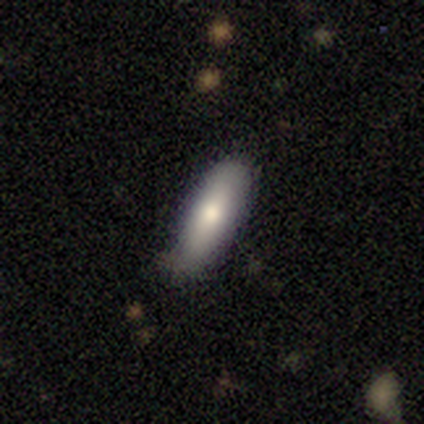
A smooth galaxy with no disk features (67%) that is in between round and cigar-shaped (54%). Merging: none (70%).